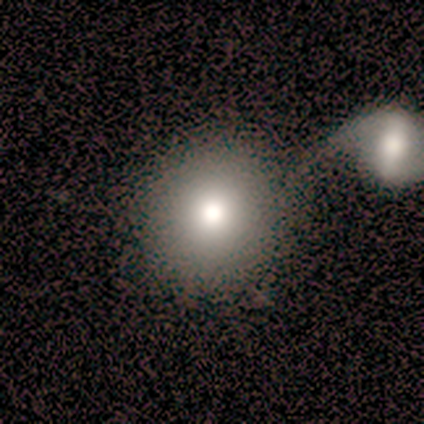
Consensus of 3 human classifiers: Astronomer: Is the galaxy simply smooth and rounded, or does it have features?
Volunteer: smooth — 100%.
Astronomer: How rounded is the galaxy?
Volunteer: round — 100%.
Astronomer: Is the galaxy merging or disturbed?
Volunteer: none — 67%.